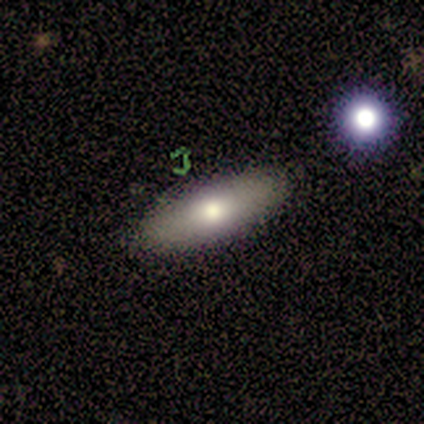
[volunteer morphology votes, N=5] A smooth galaxy with no disk features (60%) that is cigar-shaped (67%).

Vote fractions:
- Smooth or featured? smooth: 60% / featured or disk: 40% / star or artifact: 0%
- How rounded? cigar-shaped: 67% / in between: 33% / round: 0%
- Merging? none: 100% / minor disturbance: 0% / major disturbance: 0% / merger: 0%